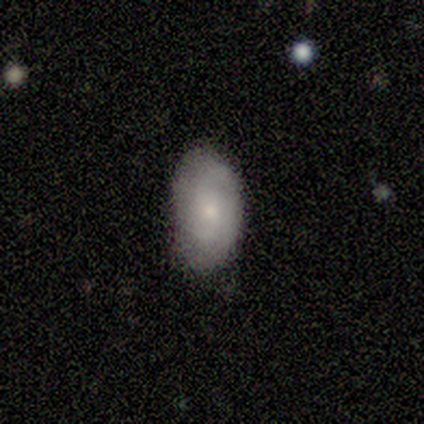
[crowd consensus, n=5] smooth_or_featured: featured or disk (p=0.60) [alt: smooth p=0.40]
disk_edge_on: no (p=1.00)
bar: no (p=1.00)
has_spiral_arms: yes (p=0.67) [alt: no p=0.33]
spiral_winding: tight (p=0.50) [tied with: medium p=0.50]
spiral_arm_count: 2 (p=1.00)
bulge_size: moderate (p=0.67) [alt: small p=0.33]
merging: none (p=0.60) [alt: minor disturbance p=0.40]